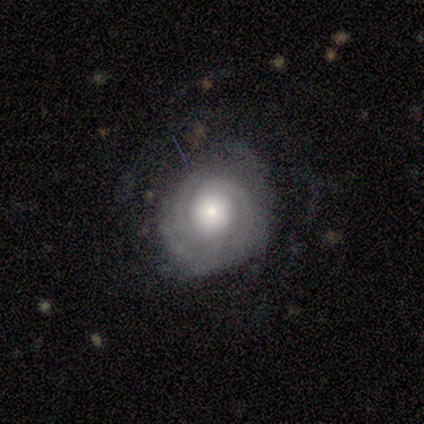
smooth-or-featured: featured or disk: 88% | star or artifact: 12% | smooth: 0%
  disk-edge-on: no: 100% | yes: 0%
    bar: no: 86% | weak: 14% | strong: 0%
    has-spiral-arms: yes: 100% | no: 0%
      spiral-winding: tight: 100% | medium: 0% | loose: 0%
      spiral-arm-count: 3: 71% | 2: 14% | can't tell: 14% | 1: 0% | 4: 0% | more than 4: 0%
    bulge-size: large: 43% (tied) | moderate: 43% (tied) | small: 14% | dominant: 0% | none: 0%
  merging: none: 57% | minor disturbance: 29% | major disturbance: 14% | merger: 0%